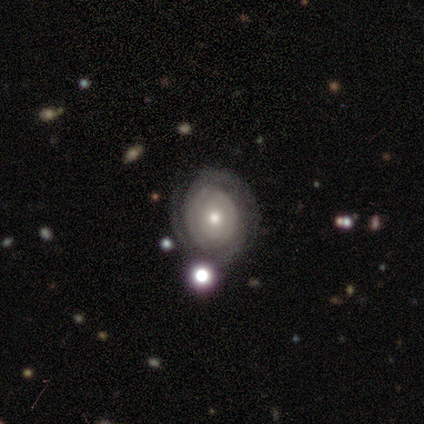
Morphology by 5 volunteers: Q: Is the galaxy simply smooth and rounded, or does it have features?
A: featured or disk — 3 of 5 (60%).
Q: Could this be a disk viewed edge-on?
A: no — 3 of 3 (100%).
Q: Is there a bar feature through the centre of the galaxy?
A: no — 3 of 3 (100%).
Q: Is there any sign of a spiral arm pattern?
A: yes — 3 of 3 (100%).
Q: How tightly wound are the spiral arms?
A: tight — 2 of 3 (67%).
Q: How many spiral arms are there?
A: can't tell — 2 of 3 (67%).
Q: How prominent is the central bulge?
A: moderate — 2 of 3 (67%).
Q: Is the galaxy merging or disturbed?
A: none — 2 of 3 (67%).